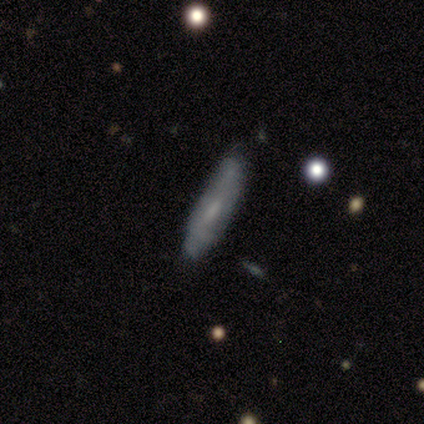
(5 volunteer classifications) smooth 80%, featured or disk 20%, star or artifact 0%. Down the decision tree: how rounded — cigar-shaped (100%); merging — none (60%).